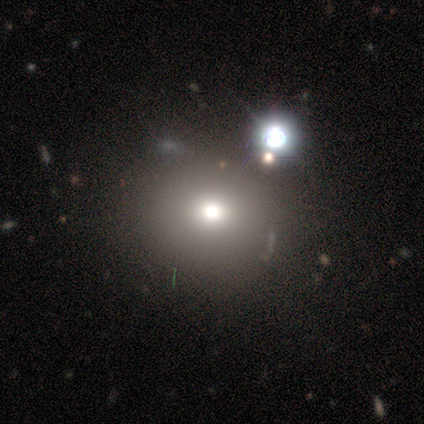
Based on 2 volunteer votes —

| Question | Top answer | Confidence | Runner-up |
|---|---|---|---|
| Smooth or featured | star or artifact | 100% | — |